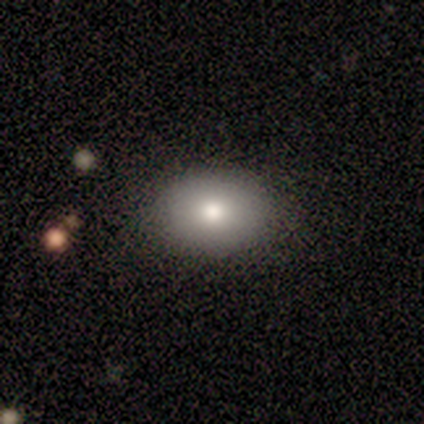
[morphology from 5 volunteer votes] Smooth or featured: smooth — 80% (star or artifact — 20%)
How rounded: in between — 100%
Merging: none — 100%